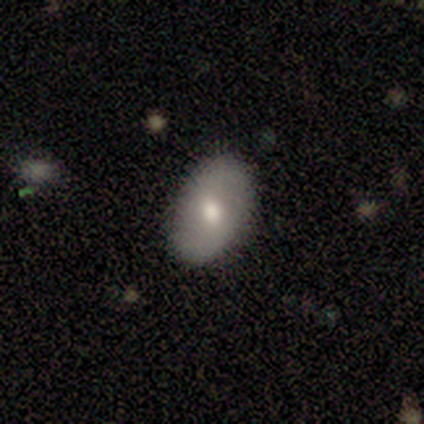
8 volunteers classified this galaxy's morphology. Q: Smooth or featured?
A: smooth (62%); runner-up: featured or disk (25%)
Q: How rounded?
A: in between (100%)
Q: Merging?
A: none (100%)